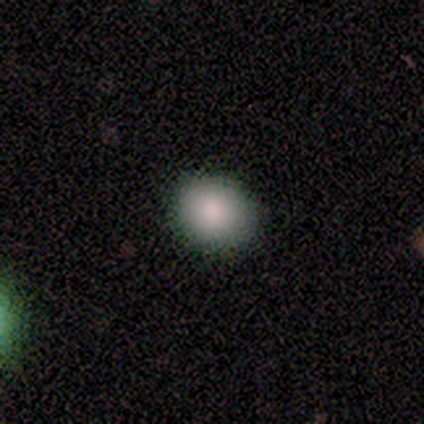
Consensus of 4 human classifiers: This appears to be a smooth galaxy with no disk features (100%) that is round (75%). Merging: none (50%, tied with minor disturbance).